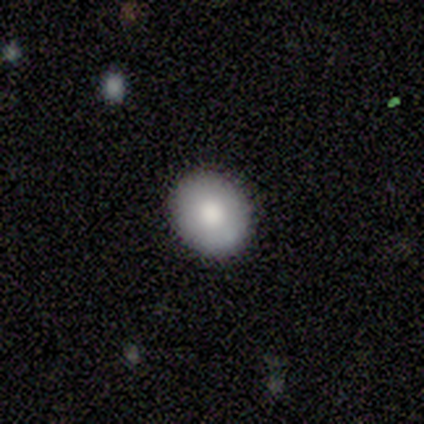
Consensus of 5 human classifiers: Smooth or featured: smooth — 60% (featured or disk — 40%)
How rounded: round — 100%
Merging: none — 100%